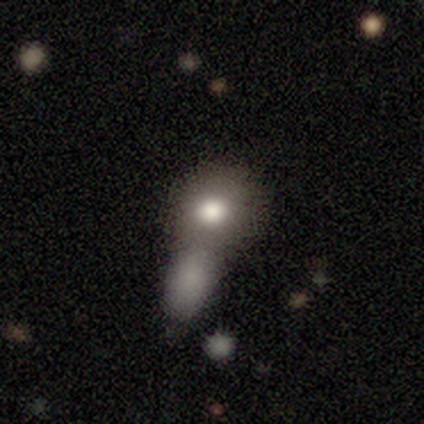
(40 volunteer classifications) This is likely a smooth galaxy (70%). How rounded: likely round (64%). Merging: possibly merger (46%).